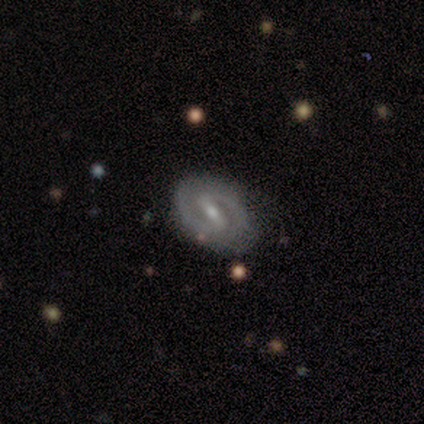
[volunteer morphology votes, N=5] featured or disk 100%, smooth 0%, star or artifact 0%. Down the decision tree: edge-on disk — no (100%); bar — strong (60%); spiral arms — yes (100%); spiral arm count — 2 (100%); spiral winding — tight (60%); bulge size — small (60%); merging — none (100%).